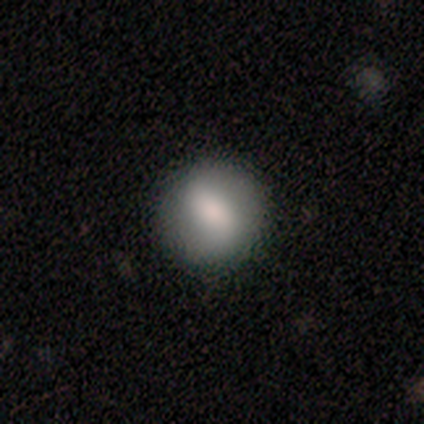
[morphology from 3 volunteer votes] Overall: smooth (100%). How rounded: round (100%). Merging: none (100%).